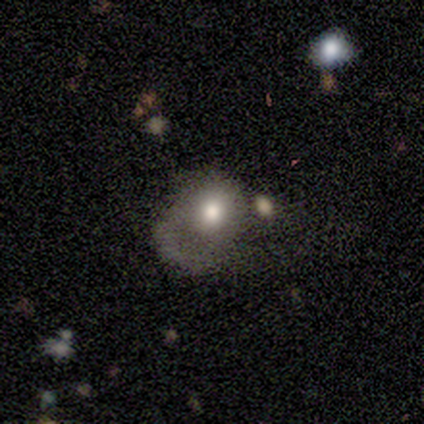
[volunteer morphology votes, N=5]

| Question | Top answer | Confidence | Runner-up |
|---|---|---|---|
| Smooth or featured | smooth | 80% | featured or disk (20%) |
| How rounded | in between | 75% | round (25%) |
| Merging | minor disturbance | 80% | major disturbance (20%) |